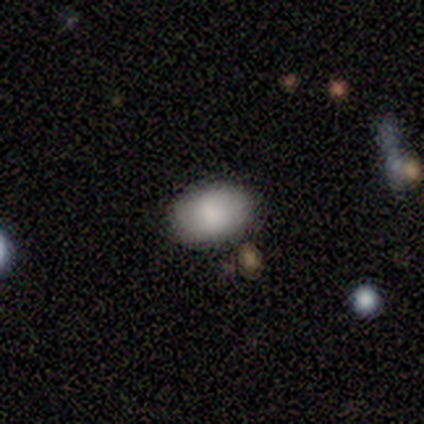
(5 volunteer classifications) smooth_or_featured: smooth (p=0.40) [tied with: featured or disk p=0.40]
how_rounded: in between (p=1.00)
merging: none (p=1.00)